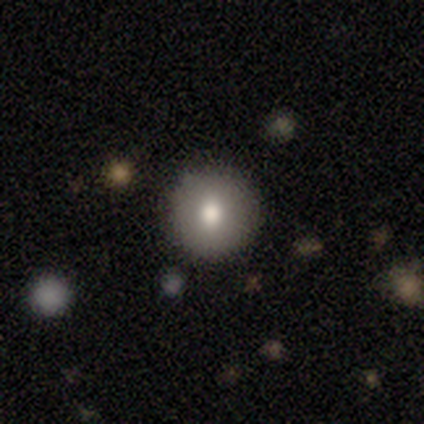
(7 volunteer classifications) smooth_or_featured: smooth (p=0.86) [alt: featured or disk p=0.14]
how_rounded: round (p=0.67) [alt: in between p=0.33]
merging: none (p=0.71) [alt: minor disturbance p=0.29]